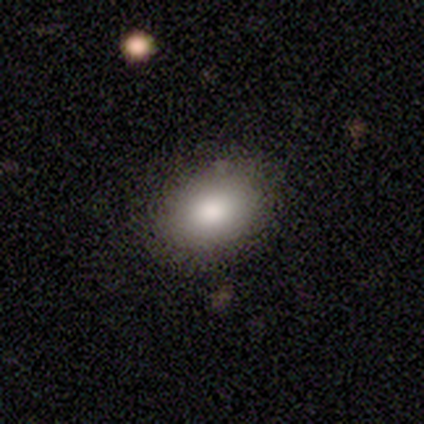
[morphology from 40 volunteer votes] This appears to be a smooth galaxy with no disk features (82%) that is in between round and cigar-shaped (79%). Merging: none (95%).